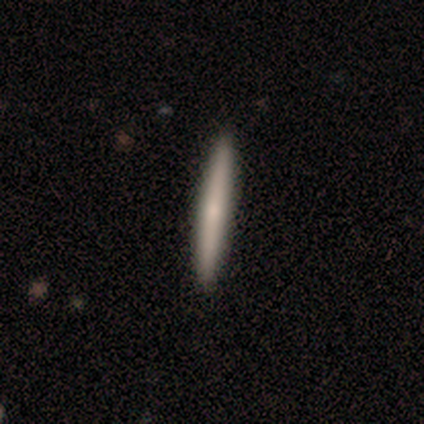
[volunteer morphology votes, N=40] smooth 65%, featured or disk 35%, star or artifact 0%. Down the decision tree: how rounded — cigar-shaped (100%); merging — none (75%).